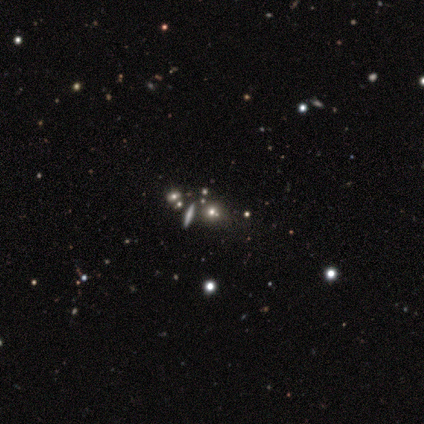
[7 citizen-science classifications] Smooth or featured? smooth (43%, tied with star or artifact)
How rounded? round (100%)
Merging? none (75%)